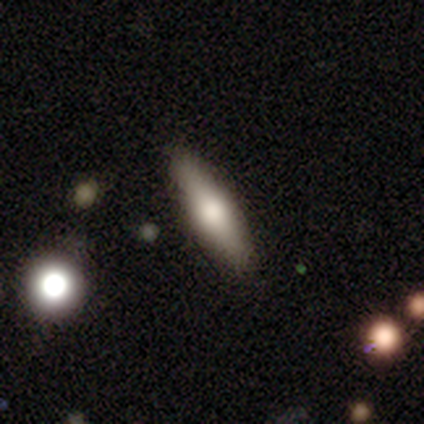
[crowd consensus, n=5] Overall: featured or disk (80%). Edge-on disk: yes (100%). Edge-on bulge: rounded (100%). Merging: none (80%).